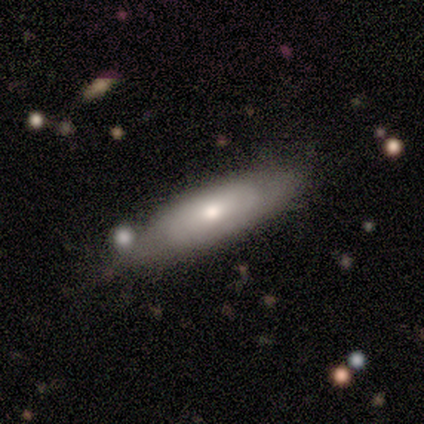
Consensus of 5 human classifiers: This appears to be a smooth galaxy with no disk features (100%) that is in between round and cigar-shaped (60%). Merging: none (80%).